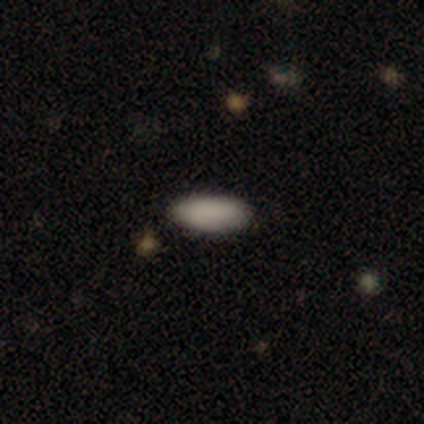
smooth-or-featured: smooth: 100% | featured or disk: 0% | star or artifact: 0%
  how-rounded: in between: 60% | cigar-shaped: 40% | round: 0%
  merging: none: 100% | minor disturbance: 0% | major disturbance: 0% | merger: 0%